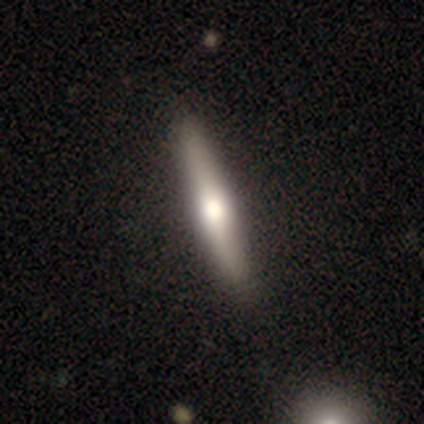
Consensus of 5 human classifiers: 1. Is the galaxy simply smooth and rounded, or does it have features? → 80% featured or disk, 20% smooth, 0% star or artifact.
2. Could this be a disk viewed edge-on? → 100% yes, 0% no.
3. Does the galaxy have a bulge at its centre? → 100% rounded, 0% boxy, 0% none.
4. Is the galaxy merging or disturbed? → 100% none, 0% minor disturbance, 0% major disturbance, 0% merger.